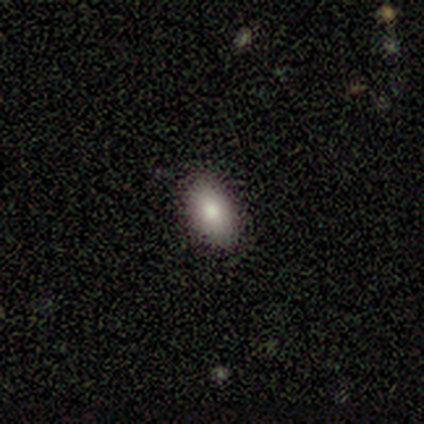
Volunteers were most divided on "smooth or featured": smooth: 60%, featured or disk: 20%, star or artifact: 20%. More confident: how rounded — in between (100%); merging — none (100%).